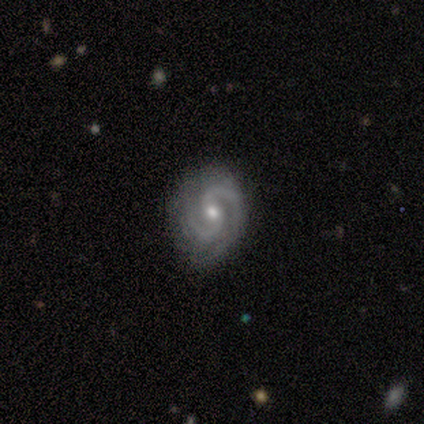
Volunteers were most divided on "smooth or featured": featured or disk: 60%, star or artifact: 40%, smooth: 0%. More confident: edge-on disk — no (100%); spiral arms — yes (100%); spiral winding — medium (100%); spiral arm count — 2 (100%); bar — weak (67%); bulge size — small (67%); merging — none (67%).